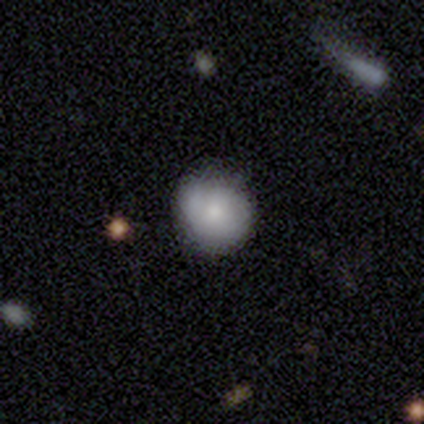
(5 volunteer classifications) smooth 40% (tied), featured or disk 40% (tied), star or artifact 20%. Down the decision tree: how rounded — round (100%); merging — none (75%).